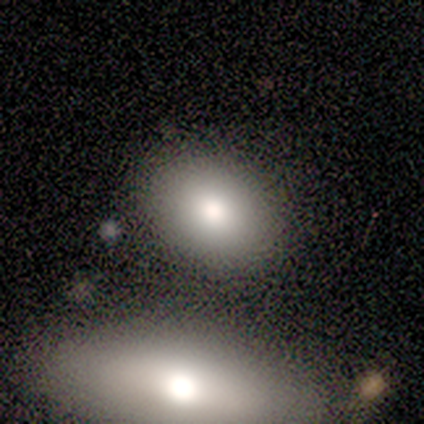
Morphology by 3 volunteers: smooth-or-featured: smooth: 100% | featured or disk: 0% | star or artifact: 0%
  how-rounded: in between: 100% | round: 0% | cigar-shaped: 0%
  merging: none: 100% | minor disturbance: 0% | major disturbance: 0% | merger: 0%